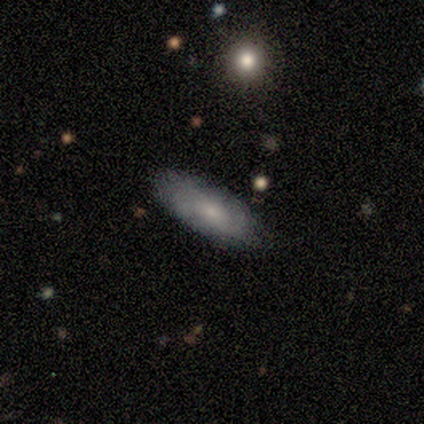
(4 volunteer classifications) Smooth or featured? smooth (100%)
How rounded? in between (100%)
Merging? none (100%)